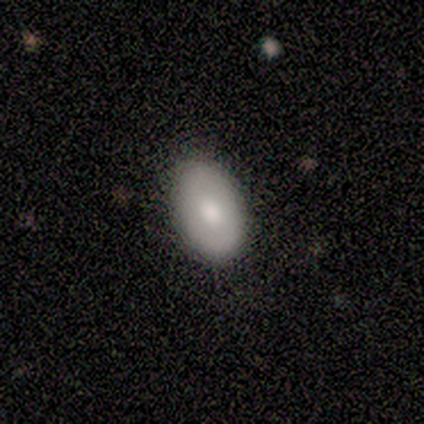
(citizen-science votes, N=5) smooth_or_featured: smooth (p=0.60) [alt: featured or disk p=0.20]
how_rounded: in between (p=1.00)
merging: none (p=1.00)